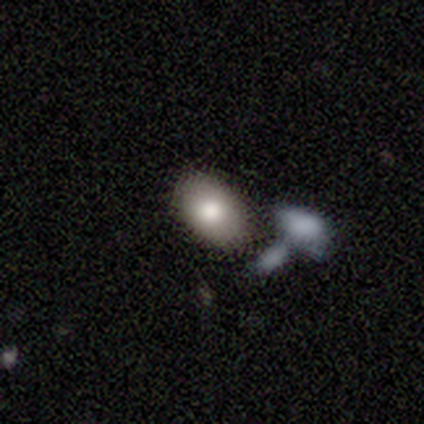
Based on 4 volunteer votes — This is possibly a smooth galaxy (50%). How rounded: possibly round (50%, tied with in between). Merging: marginally none (33%, tied with minor disturbance and merger).